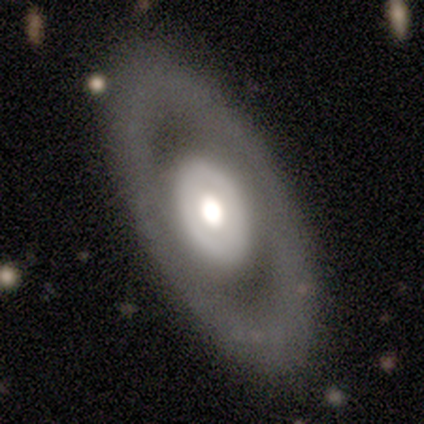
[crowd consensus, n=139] featured or disk 66%, smooth 26%, star or artifact 8%. Down the decision tree: edge-on disk — no (84%); bar — no (94%); spiral arms — no (91%); bulge size — moderate (55%); merging — none (85%).